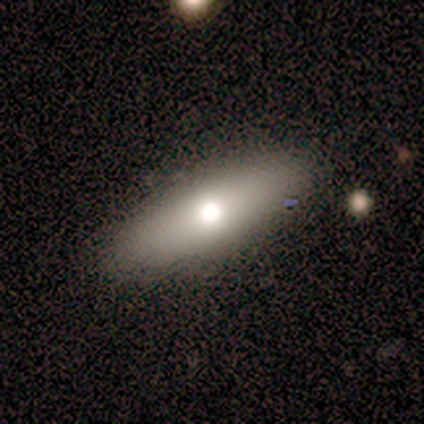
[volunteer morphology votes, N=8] Smooth or featured? 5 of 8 (62%) said smooth. How rounded? 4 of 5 (80%) said cigar-shaped. Merging? 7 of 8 (88%) said none.